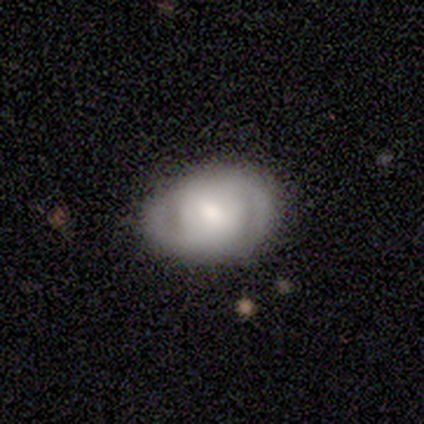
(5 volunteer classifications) A featured or disk galaxy (100%) with no bar (50%), 2 (75%) tight (50%, tied with medium) spiral arms (100%) and a moderate central bulge (50%, tied with small).

Vote fractions:
- Smooth or featured? featured or disk: 100% / smooth: 0% / star or artifact: 0%
- Edge-on disk? no: 80% / yes: 20%
- Bar? no: 50% / strong: 25% / weak: 25%
- Spiral arms? yes: 100% / no: 0%
- Spiral winding? tight: 50% (tied) / medium: 50% (tied) / loose: 0%
- Spiral arm count? 2: 75% / 1: 25% / 3: 0% / 4: 0% / more than 4: 0% / can't tell: 0%
- Bulge size? moderate: 50% (tied) / small: 50% (tied) / dominant: 0% / large: 0% / none: 0%
- Merging? none: 60% / minor disturbance: 20% / major disturbance: 20% / merger: 0%